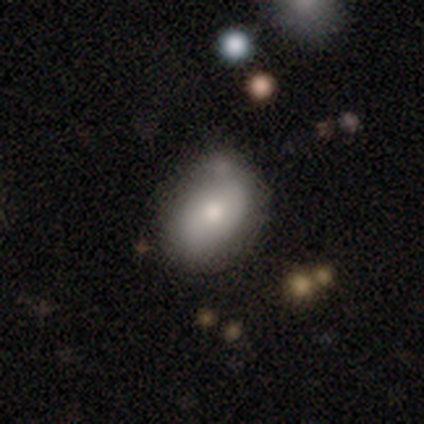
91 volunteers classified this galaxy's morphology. This appears to be a smooth galaxy with no disk features (77%) that is in between round and cigar-shaped (83%). Merging: none (61%).